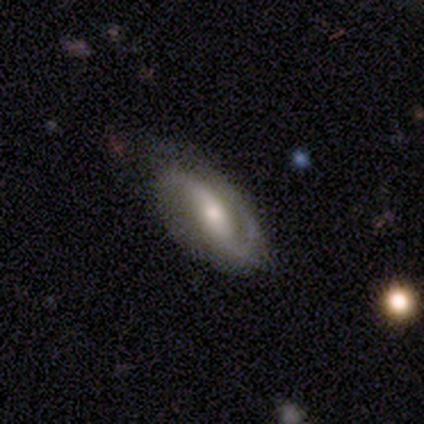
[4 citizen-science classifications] Q: Smooth or featured?
A: featured or disk (100%)
Q: Edge-on disk?
A: no (75%); runner-up: yes (25%)
Q: Bar?
A: strong (67%); runner-up: weak (33%)
Q: Spiral arms?
A: yes (100%)
Q: Spiral winding?
A: loose (67%); runner-up: tight (33%)
Q: Spiral arm count?
A: 2 (67%); runner-up: 1 (33%)
Q: Bulge size?
A: moderate (100%)
Q: Merging?
A: none (100%)